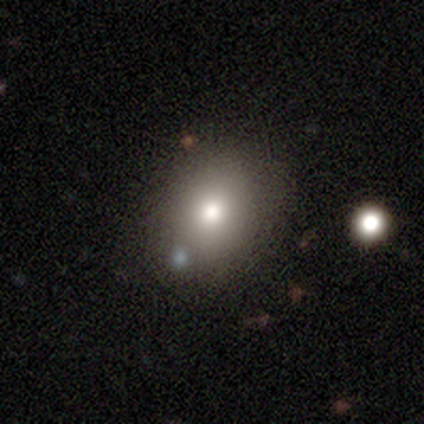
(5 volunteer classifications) Smooth or featured? 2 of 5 (40%, tied with star or artifact) said smooth. How rounded? 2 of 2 (100%) said in between. Merging? 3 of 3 (100%) said minor disturbance.